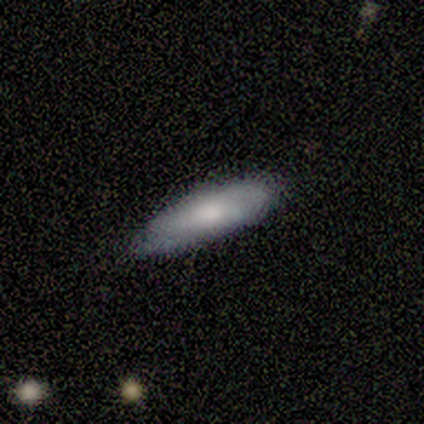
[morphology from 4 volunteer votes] A smooth galaxy with no disk features (75%) that is cigar-shaped (67%). Merging: none (100%).